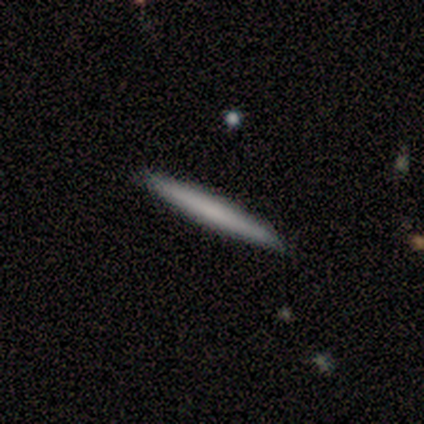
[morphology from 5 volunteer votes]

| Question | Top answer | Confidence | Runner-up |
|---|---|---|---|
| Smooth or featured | featured or disk | 60% | smooth (40%) |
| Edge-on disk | yes | 100% | — |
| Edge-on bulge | none | 100% | — |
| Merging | none | 100% | — |